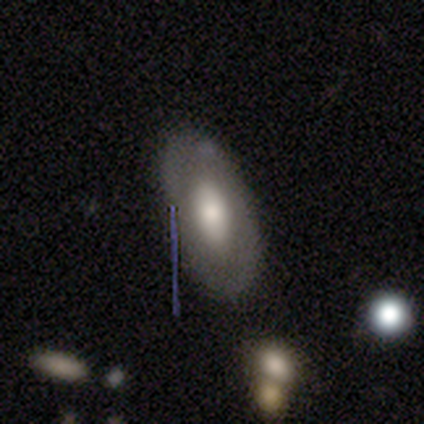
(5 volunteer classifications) Smooth or featured?
  - featured or disk: 80% *
  - star or artifact: 20%
  - smooth: 0%
Edge-on disk?
  - no: 75% *
  - yes: 25%
Bar?
  - no: 100% *
  - strong: 0%
  - weak: 0%
Spiral arms?
  - no: 67% *
  - yes: 33%
Bulge size?
  - moderate: 67% *
  - large: 33%
  - dominant: 0%
  - small: 0%
  - none: 0%
Merging?
  - none: 75% *
  - minor disturbance: 25%
  - major disturbance: 0%
  - merger: 0%